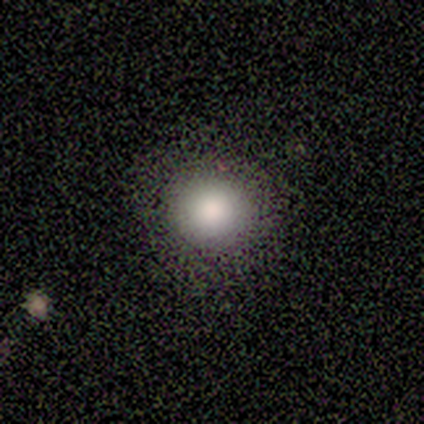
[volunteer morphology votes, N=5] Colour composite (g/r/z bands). It shows a smooth galaxy with no disk features (80%) that is round (100%). Merging: none (100%).